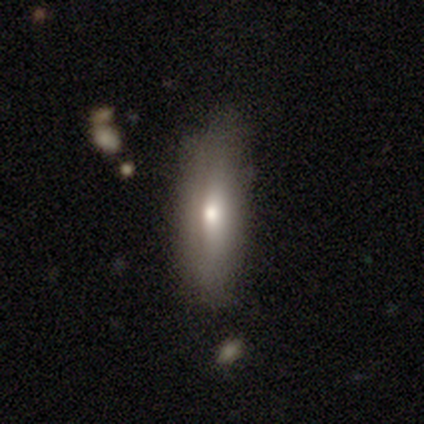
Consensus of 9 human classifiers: Overall: smooth (44%, tied with featured or disk). How rounded: cigar-shaped (100%). Merging: none (100%).